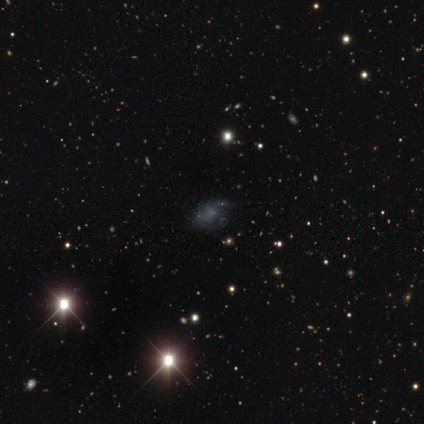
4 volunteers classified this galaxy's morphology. Smooth or featured?
  - featured or disk: 50% *
  - smooth: 25%
  - star or artifact: 25%
Edge-on disk?
  - no: 100% *
  - yes: 0%
Bar?
  - no: 100% *
  - strong: 0%
  - weak: 0%
Spiral arms?
  - yes: 50% * (tied)
  - no: 50% * (tied)
Spiral winding?
  - medium: 100% *
  - tight: 0%
  - loose: 0%
Spiral arm count?
  - 2: 100% *
  - 1: 0%
  - 3: 0%
  - 4: 0%
  - more than 4: 0%
  - can't tell: 0%
Bulge size?
  - none: 100% *
  - dominant: 0%
  - large: 0%
  - moderate: 0%
  - small: 0%
Merging?
  - none: 100% *
  - minor disturbance: 0%
  - major disturbance: 0%
  - merger: 0%